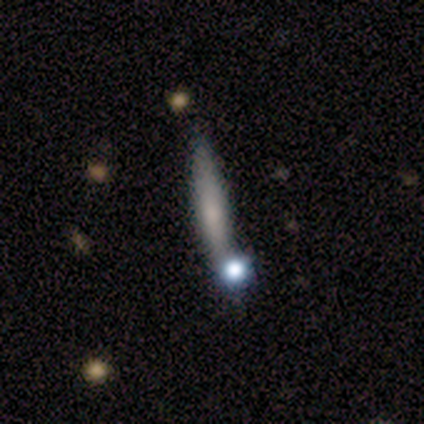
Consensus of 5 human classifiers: smooth-or-featured: featured or disk: 60% | smooth: 20% | star or artifact: 20%
  disk-edge-on: yes: 100% | no: 0%
    edge-on-bulge: rounded: 67% | none: 33% | boxy: 0%
  merging: none: 100% | minor disturbance: 0% | major disturbance: 0% | merger: 0%